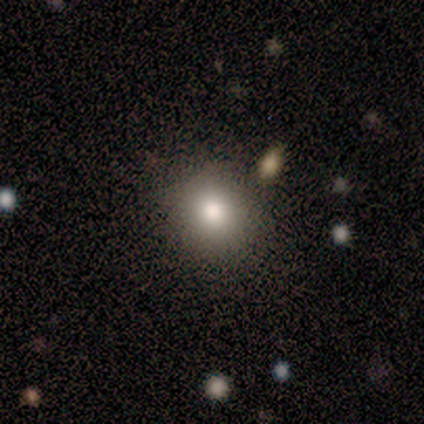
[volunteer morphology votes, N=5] smooth-or-featured: smooth: 80% | star or artifact: 20% | featured or disk: 0%
  how-rounded: round: 75% | in between: 25% | cigar-shaped: 0%
  merging: none: 100% | minor disturbance: 0% | major disturbance: 0% | merger: 0%